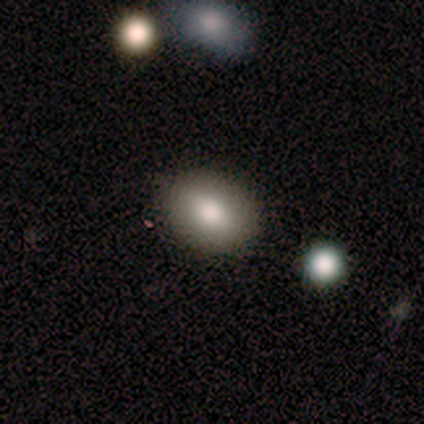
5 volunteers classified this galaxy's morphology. A smooth galaxy with no disk features (100%) that is in between round and cigar-shaped (60%).

Vote fractions:
- Smooth or featured? smooth: 100% / featured or disk: 0% / star or artifact: 0%
- How rounded? in between: 60% / round: 40% / cigar-shaped: 0%
- Merging? none: 100% / minor disturbance: 0% / major disturbance: 0% / merger: 0%